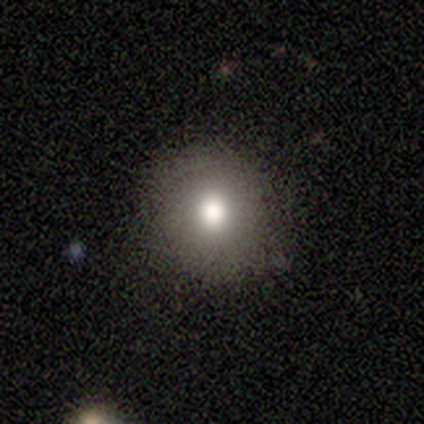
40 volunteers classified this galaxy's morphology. Smooth or featured: smooth — 78% (star or artifact — 12%)
How rounded: round — 90% (in between — 10%)
Merging: none — 86% (minor disturbance — 11%)